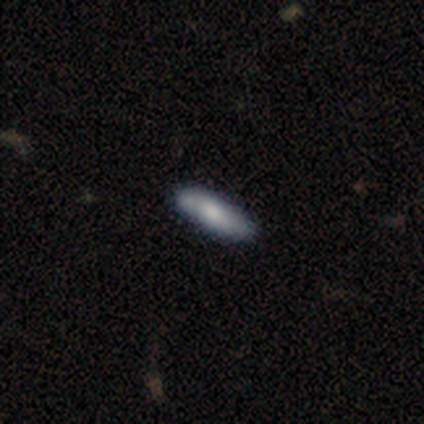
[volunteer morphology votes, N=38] Overall: smooth (66%; featured or disk 29%). How rounded: cigar-shaped (68%; in between 32%). Merging: none (75%).